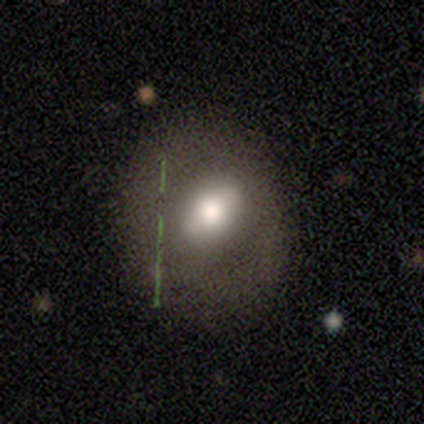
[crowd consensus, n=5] Smooth or featured? featured or disk (60%)
Edge-on disk? no (100%)
Bar? strong (67%)
Spiral arms? no (100%)
Bulge size? moderate (67%)
Merging? none (80%)